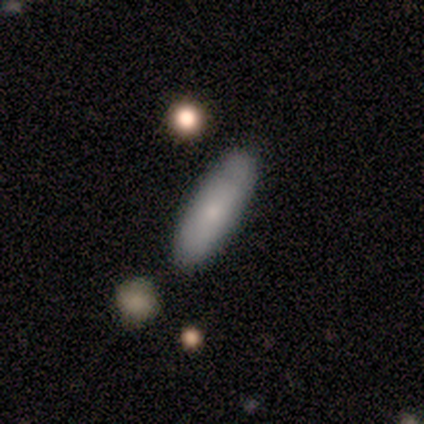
This is likely a smooth galaxy (75%). How rounded: likely cigar-shaped (67%). Merging: possibly none (50%).